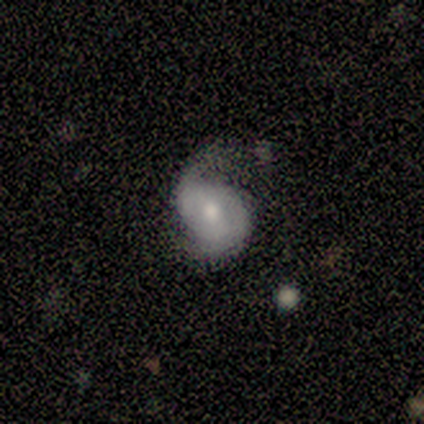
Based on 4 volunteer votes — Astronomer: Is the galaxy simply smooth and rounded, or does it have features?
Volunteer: featured or disk — 100%.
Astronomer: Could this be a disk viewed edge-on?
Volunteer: no — 100%.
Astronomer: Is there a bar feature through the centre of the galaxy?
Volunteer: no — 75%.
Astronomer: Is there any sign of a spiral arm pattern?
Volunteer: yes — 50%, tied with no at 50%.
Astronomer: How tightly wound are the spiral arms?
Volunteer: tight — 50%, tied with loose at 50%.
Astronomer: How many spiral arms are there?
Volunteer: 2 — 100%.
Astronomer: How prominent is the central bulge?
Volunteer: moderate — 50%, tied with small at 50%.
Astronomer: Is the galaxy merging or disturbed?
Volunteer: minor disturbance — 50%.